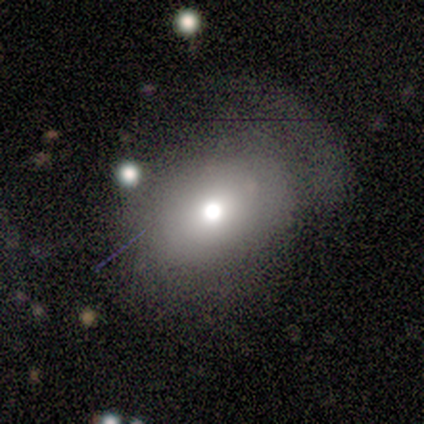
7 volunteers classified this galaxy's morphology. This appears to be a smooth galaxy with no disk features (86%) that is in between round and cigar-shaped (83%). Merging: minor disturbance (57%).